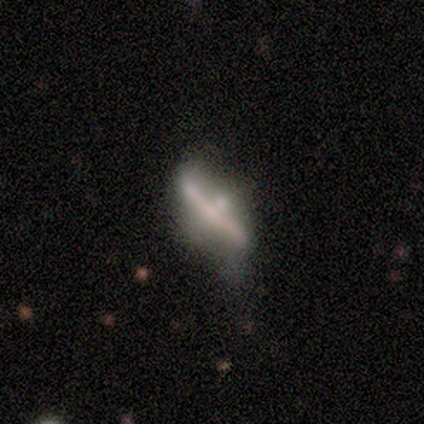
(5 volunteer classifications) A featured or disk galaxy (80%) viewed edge-on (75%) with a rounded central bulge (100%).

Vote fractions:
- Smooth or featured? featured or disk: 80% / smooth: 20% / star or artifact: 0%
- Edge-on disk? yes: 75% / no: 25%
- Edge-on bulge? rounded: 100% / boxy: 0% / none: 0%
- Merging? minor disturbance: 60% / none: 20% / major disturbance: 20% / merger: 0%